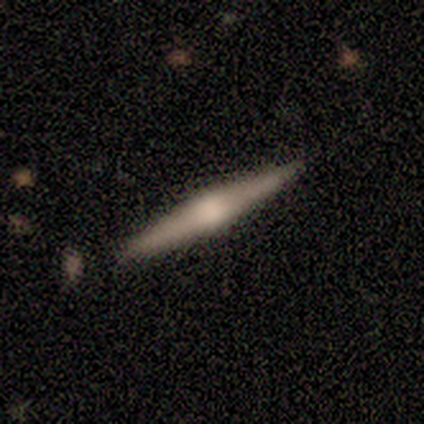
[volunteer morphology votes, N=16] Q: Smooth or featured?
A: featured or disk (88%); runner-up: smooth (6%)
Q: Edge-on disk?
A: yes (100%)
Q: Edge-on bulge?
A: rounded (79%); runner-up: boxy (14%)
Q: Merging?
A: none (87%); runner-up: minor disturbance (13%)